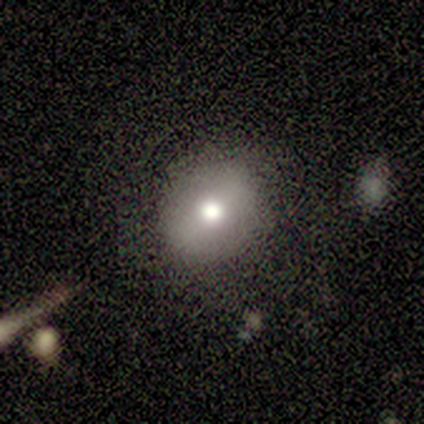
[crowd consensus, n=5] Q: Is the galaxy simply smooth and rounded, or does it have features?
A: smooth — 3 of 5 (60%).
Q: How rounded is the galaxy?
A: round — 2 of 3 (67%).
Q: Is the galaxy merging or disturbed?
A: none — 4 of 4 (100%).